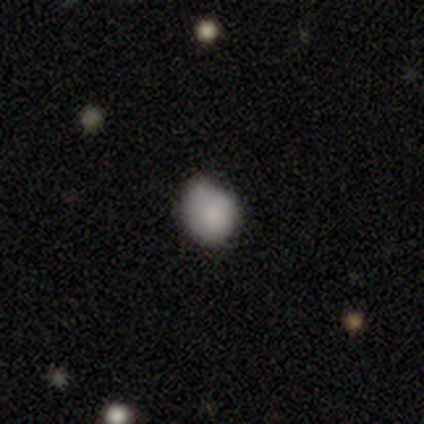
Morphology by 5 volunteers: Overall: smooth (40%, tied with featured or disk). How rounded: round (50%, tied with in between). Merging: minor disturbance (75%).